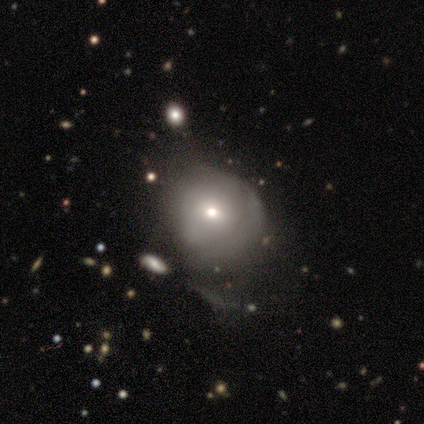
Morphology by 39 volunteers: smooth-or-featured: smooth: 69% | featured or disk: 23% | star or artifact: 8%
  how-rounded: round: 81% | in between: 19% | cigar-shaped: 0%
  merging: none: 47% | minor disturbance: 25% | major disturbance: 25% | merger: 3%